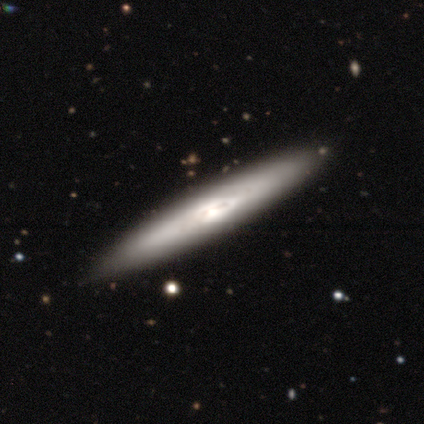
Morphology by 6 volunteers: A featured or disk galaxy (83%) viewed edge-on (80%) with a boxy central bulge (50%, tied with rounded).

Vote fractions:
- Smooth or featured? featured or disk: 83% / smooth: 17% / star or artifact: 0%
- Edge-on disk? yes: 80% / no: 20%
- Edge-on bulge? boxy: 50% (tied) / rounded: 50% (tied) / none: 0%
- Merging? none: 100% / minor disturbance: 0% / major disturbance: 0% / merger: 0%